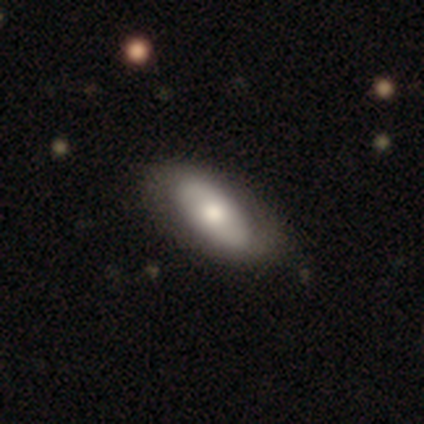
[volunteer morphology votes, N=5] Smooth or featured: smooth — 60% (featured or disk — 40%)
How rounded: in between — 100%
Merging: none — 80% (major disturbance — 20%)